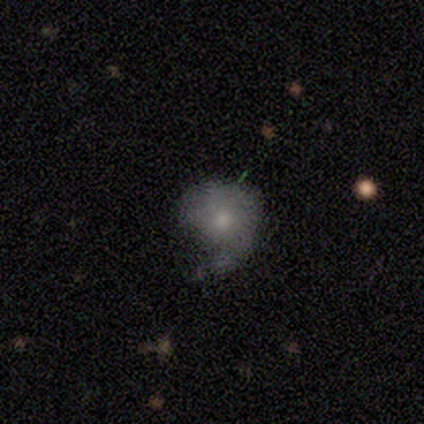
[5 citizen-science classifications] smooth 60%, featured or disk 40%, star or artifact 0%. Down the decision tree: how rounded — round (100%); merging — minor disturbance (40%, tied with major disturbance).